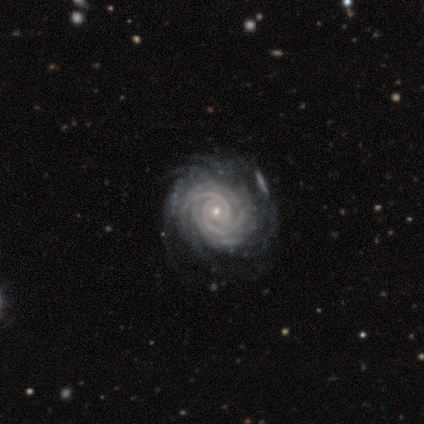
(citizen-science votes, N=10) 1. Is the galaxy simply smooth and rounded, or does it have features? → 90% featured or disk, 10% smooth, 0% star or artifact.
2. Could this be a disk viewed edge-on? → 100% no, 0% yes.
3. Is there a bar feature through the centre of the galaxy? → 56% no, 33% strong, 11% weak.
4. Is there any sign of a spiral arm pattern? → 100% yes, 0% no.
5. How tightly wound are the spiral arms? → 89% tight, 11% medium, 0% loose.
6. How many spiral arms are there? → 44% 2, 22% 3, 22% can't tell, 11% 4, 0% 1, 0% more than 4.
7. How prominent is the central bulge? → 78% small, 22% moderate, 0% dominant, 0% large, 0% none.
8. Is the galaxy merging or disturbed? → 70% none, 20% minor disturbance, 10% major disturbance, 0% merger.